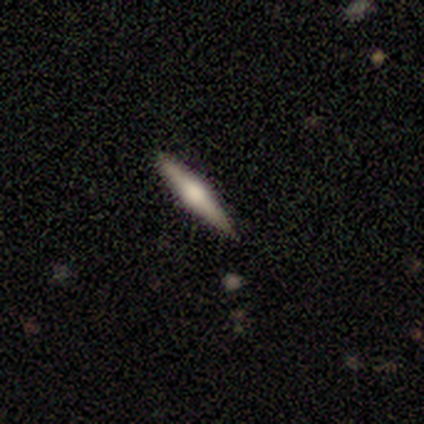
Smooth or featured? featured or disk (100%)
Edge-on disk? yes (100%)
Edge-on bulge? rounded (75%)
Merging? none (100%)